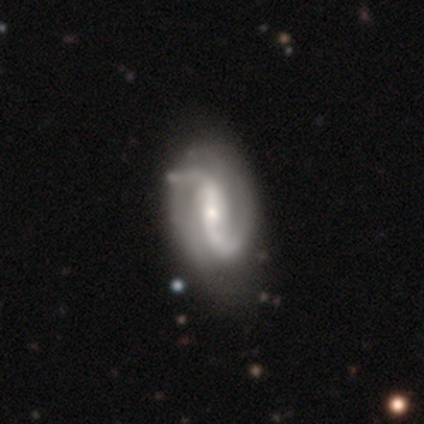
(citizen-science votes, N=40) Smooth or featured?
  - featured or disk: 100% *
  - smooth: 0%
  - star or artifact: 0%
Edge-on disk?
  - no: 98% *
  - yes: 2%
Bar?
  - strong: 44% *
  - weak: 38%
  - no: 18%
Spiral arms?
  - yes: 97% *
  - no: 3%
Spiral winding?
  - medium: 47% *
  - loose: 45%
  - tight: 8%
Spiral arm count?
  - 2: 82% *
  - 1: 8%
  - can't tell: 8%
  - 3: 3%
  - 4: 0%
  - more than 4: 0%
Bulge size?
  - small: 54% *
  - moderate: 41%
  - large: 3%
  - none: 3%
  - dominant: 0%
Merging?
  - none: 45% *
  - minor disturbance: 25%
  - major disturbance: 10%
  - merger: 2%